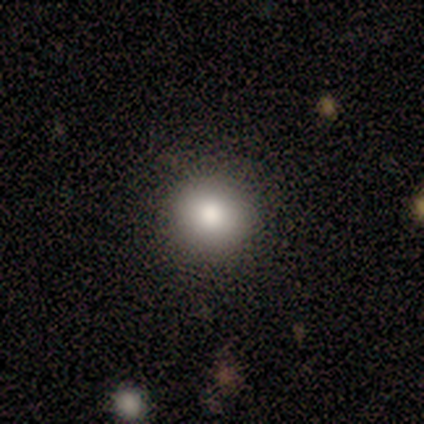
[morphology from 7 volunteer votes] Smooth or featured? smooth (71%)
How rounded? round (100%)
Merging? none (100%)